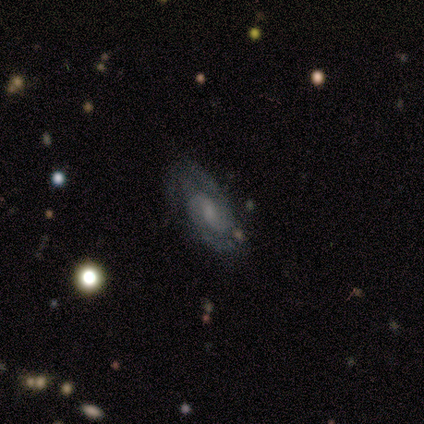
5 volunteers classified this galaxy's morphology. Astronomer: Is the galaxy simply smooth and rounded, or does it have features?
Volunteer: featured or disk — 80%.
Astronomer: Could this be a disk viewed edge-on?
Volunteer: no — 100%.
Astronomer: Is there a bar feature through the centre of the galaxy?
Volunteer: weak — 75%.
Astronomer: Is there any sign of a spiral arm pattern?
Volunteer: yes — 100%.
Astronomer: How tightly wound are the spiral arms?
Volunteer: tight — 50%, tied with medium at 50%.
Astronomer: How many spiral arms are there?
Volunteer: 2 — 75%.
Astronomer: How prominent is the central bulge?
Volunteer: moderate — 50%, tied with small at 50%.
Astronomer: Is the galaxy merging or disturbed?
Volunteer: none — 100%.